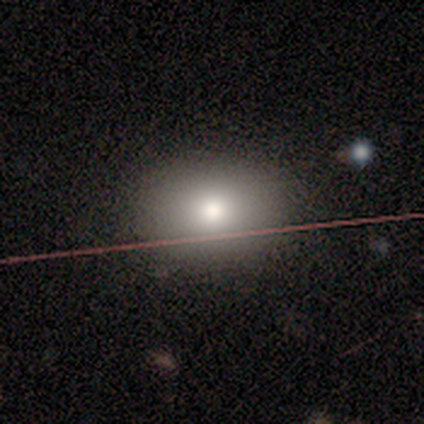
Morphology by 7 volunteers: Smooth or featured? 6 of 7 (86%) said smooth. How rounded? 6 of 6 (100%) said in between. Merging? 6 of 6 (100%) said none.